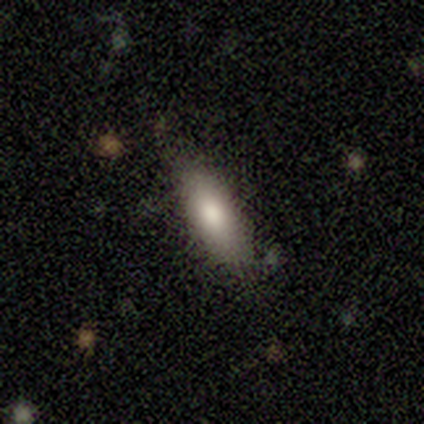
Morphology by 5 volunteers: Smooth or featured? 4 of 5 (80%) said smooth. How rounded? 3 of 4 (75%) said in between. Merging? 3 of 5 (60%) said none.